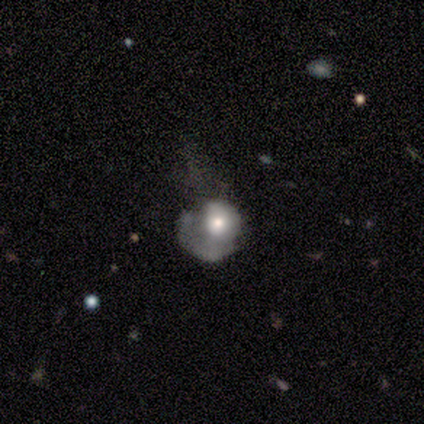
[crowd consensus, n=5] A featured or disk galaxy (60%) with no bar (100%), no spiral arms (67%) and a moderate central bulge (100%).

Vote fractions:
- Smooth or featured? featured or disk: 60% / smooth: 40% / star or artifact: 0%
- Edge-on disk? no: 100% / yes: 0%
- Bar? no: 100% / strong: 0% / weak: 0%
- Spiral arms? no: 67% / yes: 33%
- Bulge size? moderate: 100% / dominant: 0% / large: 0% / small: 0% / none: 0%
- Merging? major disturbance: 60% / none: 20% / minor disturbance: 20% / merger: 0%